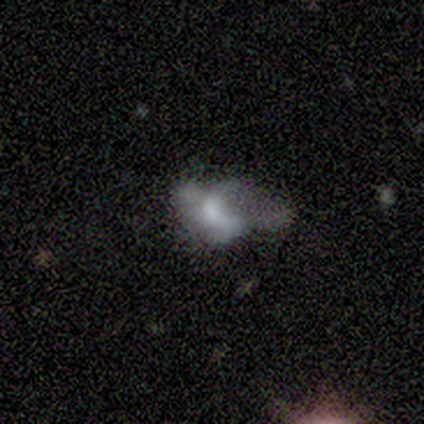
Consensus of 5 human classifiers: featured or disk 80%, smooth 20%, star or artifact 0%. Down the decision tree: edge-on disk — no (100%); bar — no (75%); spiral arms — no (100%); bulge size — moderate (50%); merging — none (40%).